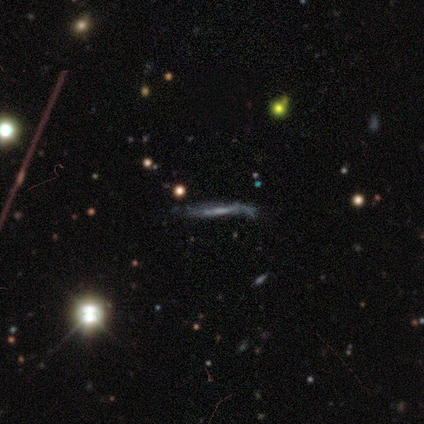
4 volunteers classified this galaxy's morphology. smooth_or_featured: featured or disk (p=1.00)
disk_edge_on: yes (p=0.50) [tied with: no p=0.50]
edge_on_bulge: none (p=1.00)
merging: minor disturbance (p=0.50) [tied with: major disturbance p=0.50]